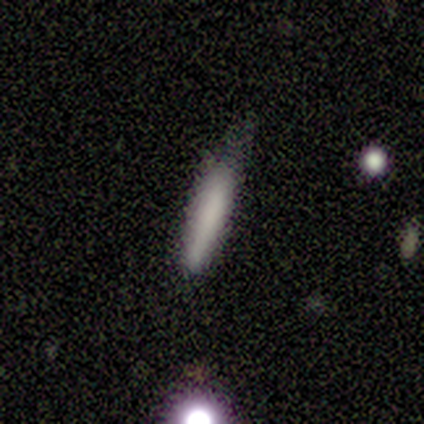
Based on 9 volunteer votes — Smooth or featured: smooth — 89% (featured or disk — 11%)
How rounded: cigar-shaped — 100%
Merging: none — 44% (minor disturbance — 33%)